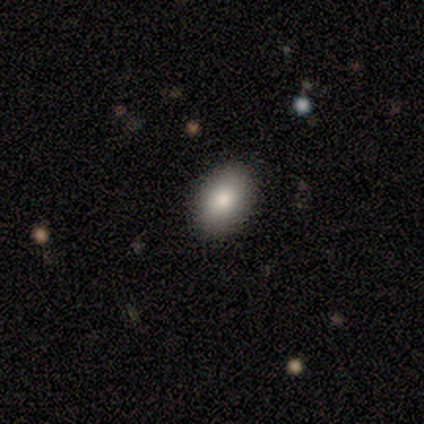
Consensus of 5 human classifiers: Smooth or featured? 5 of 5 (100%) said smooth. How rounded? 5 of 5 (100%) said in between. Merging? 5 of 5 (100%) said none.